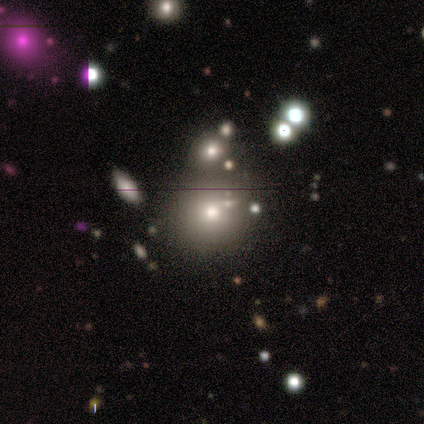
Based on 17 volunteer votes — Q: Smooth or featured?
A: smooth (71%); runner-up: featured or disk (18%)
Q: How rounded?
A: round (83%); runner-up: in between (17%)
Q: Merging?
A: none (53%); runner-up: minor disturbance (27%)